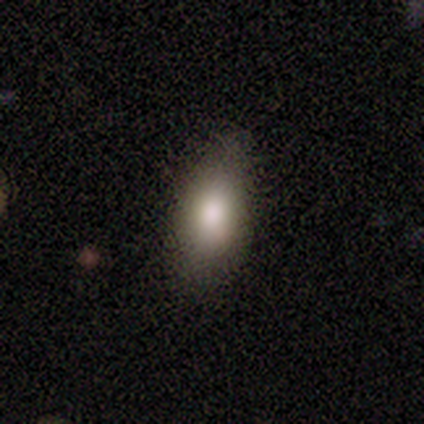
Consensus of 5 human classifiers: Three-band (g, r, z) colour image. It shows a smooth galaxy with no disk features (100%) that is in between round and cigar-shaped (100%). Merging: none (100%).